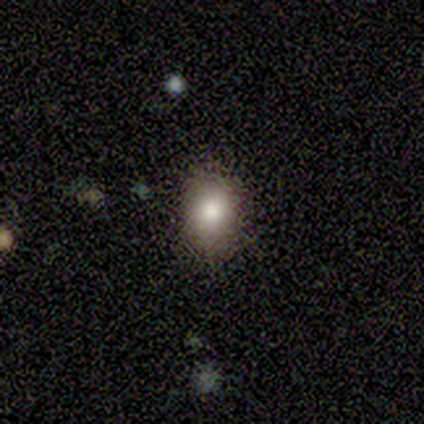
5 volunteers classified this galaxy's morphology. type=smooth (40%, tied with featured or disk); roundness=in between (100%); merging=none (100%).